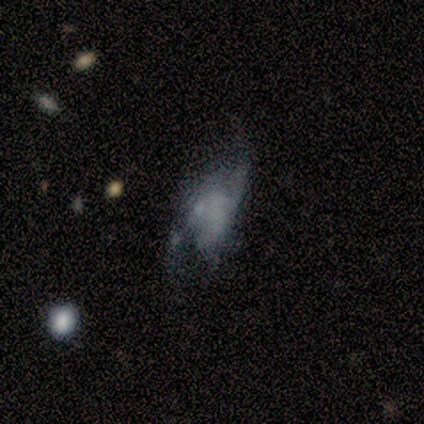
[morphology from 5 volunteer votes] A smooth galaxy with no disk features (40%, tied with featured or disk) that is in between round and cigar-shaped (100%).

Vote fractions:
- Smooth or featured? smooth: 40% (tied) / featured or disk: 40% (tied) / star or artifact: 20%
- How rounded? in between: 100% / round: 0% / cigar-shaped: 0%
- Merging? major disturbance: 50% / none: 25% / minor disturbance: 25% / merger: 0%